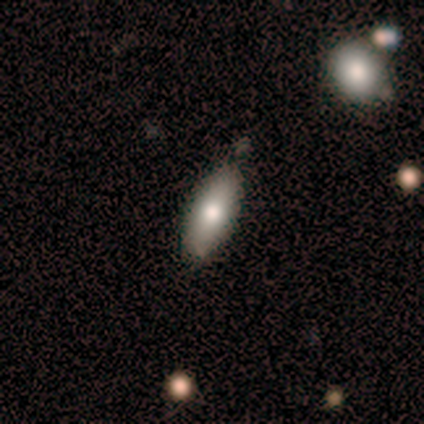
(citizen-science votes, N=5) Q: Smooth or featured?
A: smooth (80%); runner-up: featured or disk (20%)
Q: How rounded?
A: in between (75%); runner-up: cigar-shaped (25%)
Q: Merging?
A: none (60%); runner-up: minor disturbance (20%)